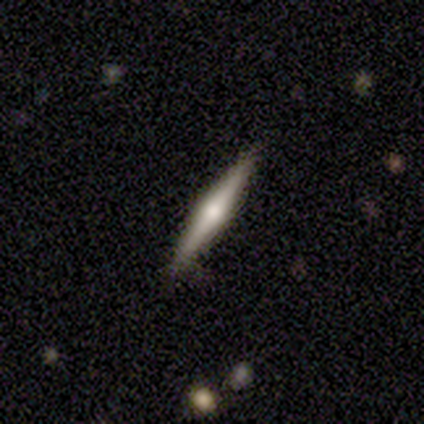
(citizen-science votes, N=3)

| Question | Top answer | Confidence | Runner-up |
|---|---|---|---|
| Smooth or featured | featured or disk | 100% | — |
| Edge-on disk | yes | 100% | — |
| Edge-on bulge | rounded | 100% | — |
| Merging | none | 100% | — |